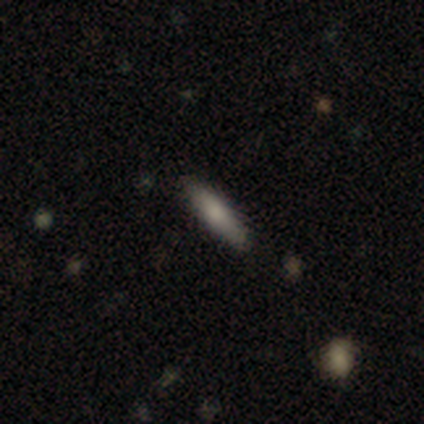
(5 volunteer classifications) A smooth galaxy with no disk features (40%, tied with featured or disk) that is in between round and cigar-shaped (100%).

Vote fractions:
- Smooth or featured? smooth: 40% (tied) / featured or disk: 40% (tied) / star or artifact: 20%
- How rounded? in between: 100% / round: 0% / cigar-shaped: 0%
- Merging? none: 100% / minor disturbance: 0% / major disturbance: 0% / merger: 0%